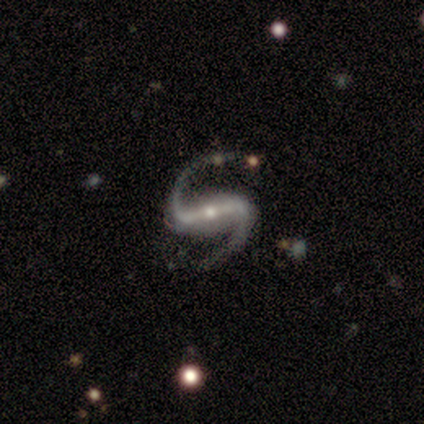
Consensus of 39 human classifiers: A featured or disk galaxy (92%) with a strong bar (74%), 2 (97%) medium (59%) spiral arms (91%) and a small central bulge (54%).

Vote fractions:
- Smooth or featured? featured or disk: 92% / star or artifact: 5% / smooth: 3%
- Edge-on disk? no: 97% / yes: 3%
- Bar? strong: 74% / weak: 14% / no: 11%
- Spiral arms? yes: 91% / no: 9%
- Spiral winding? medium: 59% / loose: 41% / tight: 0%
- Spiral arm count? 2: 97% / 1: 3% / 3: 0% / 4: 0% / more than 4: 0% / can't tell: 0%
- Bulge size? small: 54% / moderate: 40% / large: 3% / none: 3% / dominant: 0%
- Merging? none: 76% / minor disturbance: 11% / major disturbance: 11% / merger: 3%